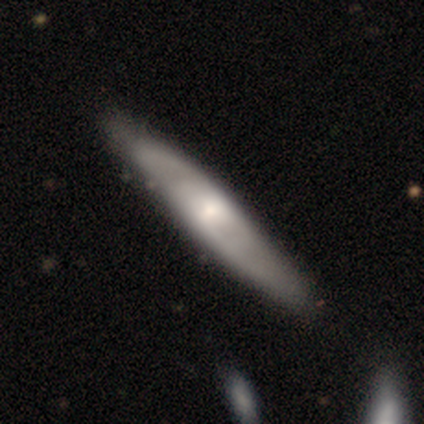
smooth_or_featured: smooth (p=0.50) [alt: featured or disk p=0.25]
how_rounded: in between (p=0.50) [tied with: cigar-shaped p=0.50]
merging: none (p=1.00)